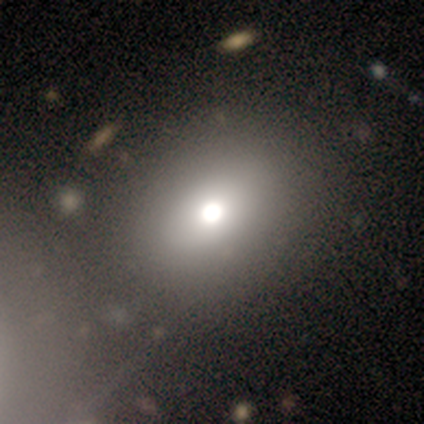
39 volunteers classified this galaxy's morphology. type=smooth (77%); roundness=round (63%); merging=none (51%).